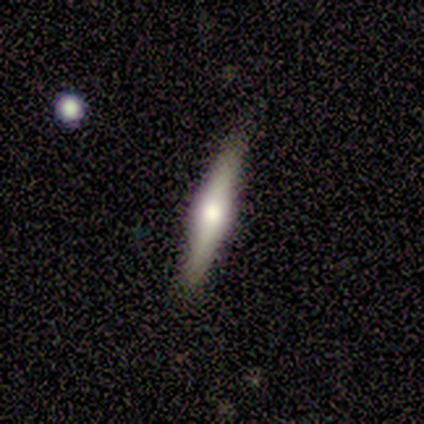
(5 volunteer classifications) Smooth or featured? featured or disk (60%)
Edge-on disk? yes (100%)
Edge-on bulge? rounded (100%)
Merging? none (80%)